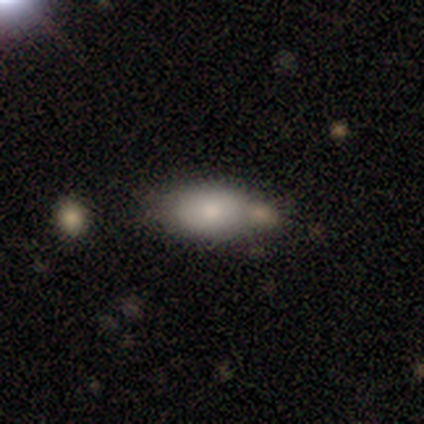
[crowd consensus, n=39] Overall: smooth (62%; featured or disk 31%). How rounded: in between (96%). Merging: none (39%; merger 31%).